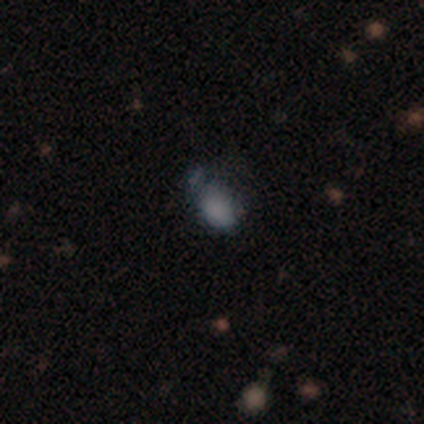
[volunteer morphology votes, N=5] Smooth or featured?
  - smooth: 40% * (tied)
  - featured or disk: 40% * (tied)
  - star or artifact: 20%
How rounded?
  - round: 50% * (tied)
  - in between: 50% * (tied)
  - cigar-shaped: 0%
Merging?
  - major disturbance: 75% *
  - minor disturbance: 25%
  - none: 0%
  - merger: 0%